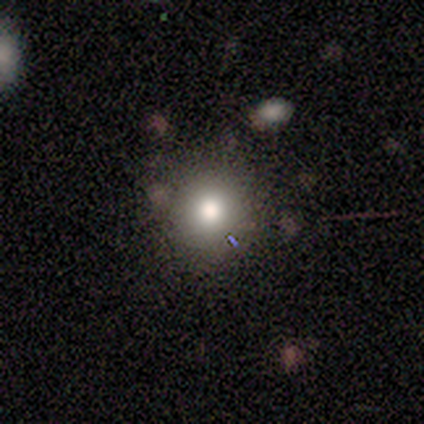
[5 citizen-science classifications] smooth-or-featured: smooth: 80% | featured or disk: 20% | star or artifact: 0%
  how-rounded: round: 100% | in between: 0% | cigar-shaped: 0%
  merging: none: 100% | minor disturbance: 0% | major disturbance: 0% | merger: 0%